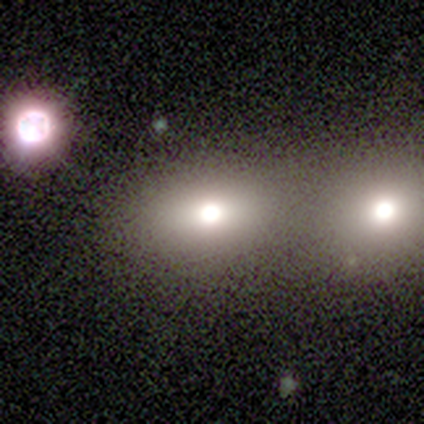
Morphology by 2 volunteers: smooth_or_featured: smooth (p=1.00)
how_rounded: round (p=0.50) [tied with: in between p=0.50]
merging: none (p=1.00)